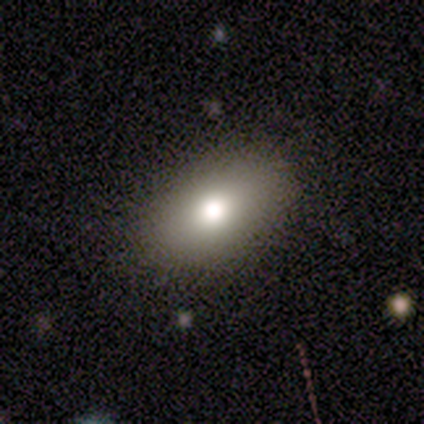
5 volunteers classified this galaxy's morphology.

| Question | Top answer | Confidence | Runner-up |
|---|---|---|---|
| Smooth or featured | smooth | 80% | featured or disk (20%) |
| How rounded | in between | 100% | — |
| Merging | none | 80% | minor disturbance (20%) |